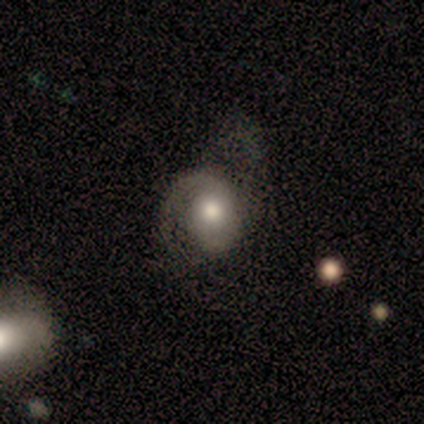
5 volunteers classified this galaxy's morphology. featured or disk 60%, smooth 20%, star or artifact 20%. Down the decision tree: edge-on disk — no (100%); bar — no (67%); spiral arms — yes (100%); spiral arm count — 2 (67%); spiral winding — tight (67%); bulge size — moderate (67%); merging — major disturbance (75%).